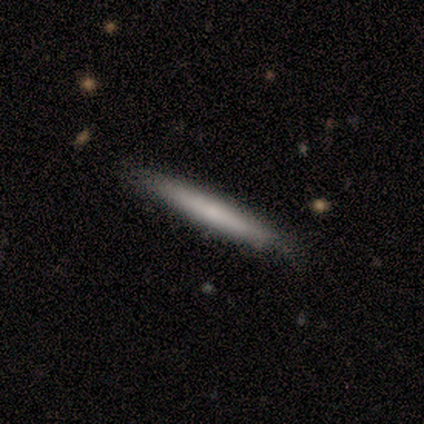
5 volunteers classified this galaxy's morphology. Smooth or featured? 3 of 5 (60%) said featured or disk. Edge-on disk? 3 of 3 (100%) said yes. Edge-on bulge? 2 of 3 (67%) said none. Merging? 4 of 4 (100%) said none.